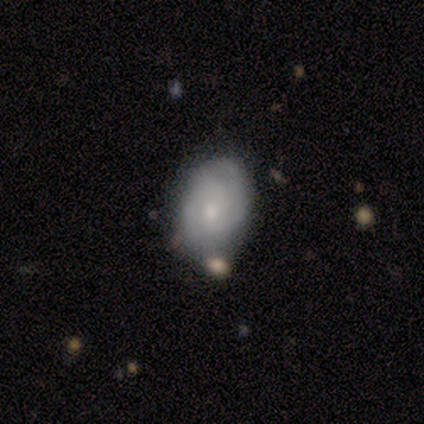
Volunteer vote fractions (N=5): featured or disk 60%, smooth 20%, star or artifact 20%. Down the decision tree: edge-on disk — no (100%); bar — no (67%); spiral arms — yes (100%); spiral arm count — 2 (67%); spiral winding — tight (100%); bulge size — moderate (67%); merging — none (50%, tied with minor disturbance).